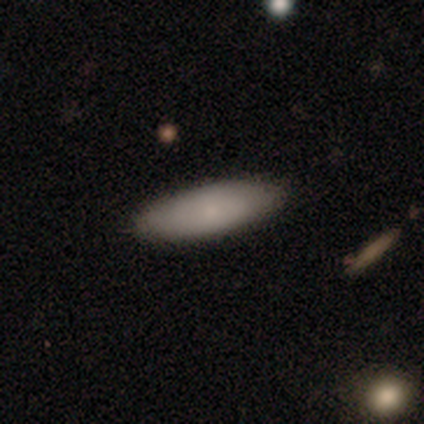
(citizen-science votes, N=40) This is likely a smooth galaxy (78%). How rounded: possibly in between (52%). Merging: clearly none (89%).